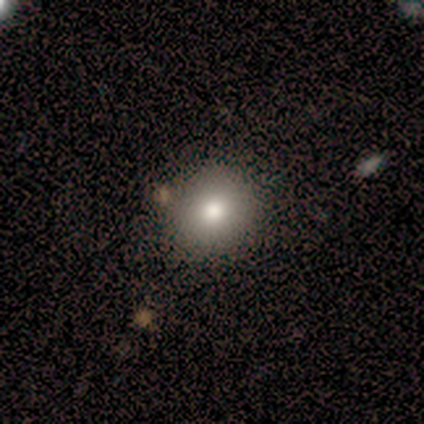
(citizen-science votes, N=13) Smooth or featured? smooth (92%)
How rounded? round (100%)
Merging? none (92%)